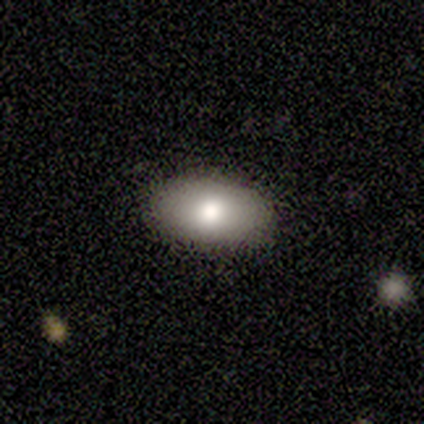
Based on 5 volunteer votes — smooth-or-featured: smooth: 40% (tied) | featured or disk: 40% (tied) | star or artifact: 20%
  how-rounded: in between: 100% | round: 0% | cigar-shaped: 0%
  merging: none: 100% | minor disturbance: 0% | major disturbance: 0% | merger: 0%